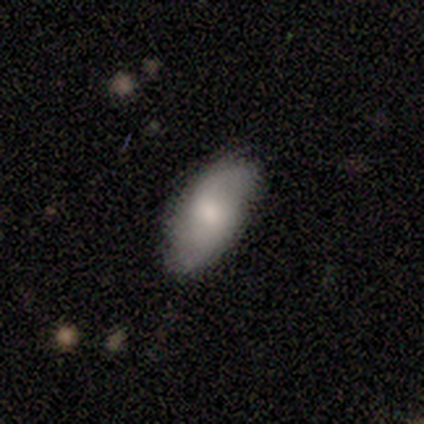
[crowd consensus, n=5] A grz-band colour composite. It shows a featured or disk galaxy (80%) with no bar (75%), 2 (100%) loose (67%) spiral arms (75%) and a moderate central bulge (75%). Merging: none (100%).